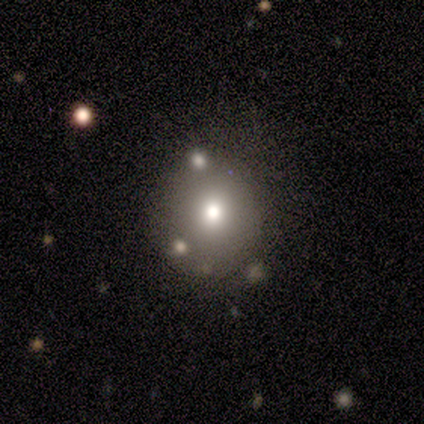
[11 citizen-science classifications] Smooth or featured? smooth (64%)
How rounded? round (71%)
Merging? none (78%)